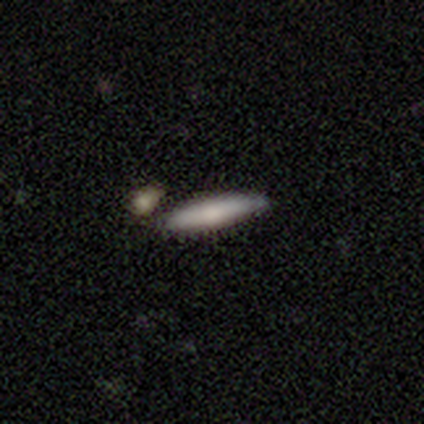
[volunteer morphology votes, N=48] Q: Smooth or featured?
A: smooth (65%); runner-up: featured or disk (31%)
Q: How rounded?
A: cigar-shaped (87%); runner-up: in between (13%)
Q: Merging?
A: none (70%); runner-up: minor disturbance (15%)